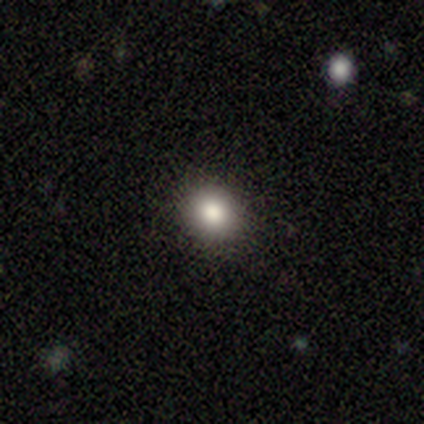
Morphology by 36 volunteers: smooth 81%, star or artifact 19%, featured or disk 0%. Down the decision tree: how rounded — round (69%); merging — none (86%).